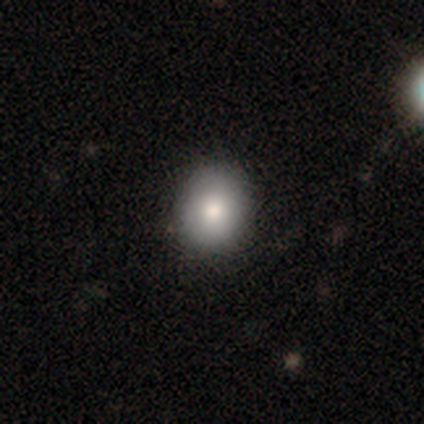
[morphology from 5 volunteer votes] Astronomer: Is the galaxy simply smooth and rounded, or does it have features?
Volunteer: featured or disk — 40%, tied with star or artifact at 40%.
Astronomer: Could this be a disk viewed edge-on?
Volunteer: no — 100%.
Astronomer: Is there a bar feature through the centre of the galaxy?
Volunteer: no — 100%.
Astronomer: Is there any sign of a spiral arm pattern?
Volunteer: no — 100%.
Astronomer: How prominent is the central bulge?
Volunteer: moderate — 100%.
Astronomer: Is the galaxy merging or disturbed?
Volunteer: none — 100%.